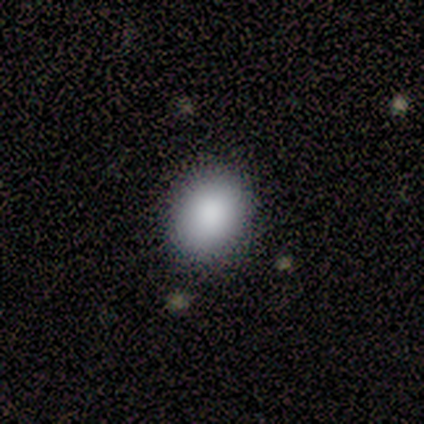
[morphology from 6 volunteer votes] Smooth or featured: smooth — 67% (featured or disk — 33%)
How rounded: in between — 75% (round — 25%)
Merging: none — 83% (minor disturbance — 17%)